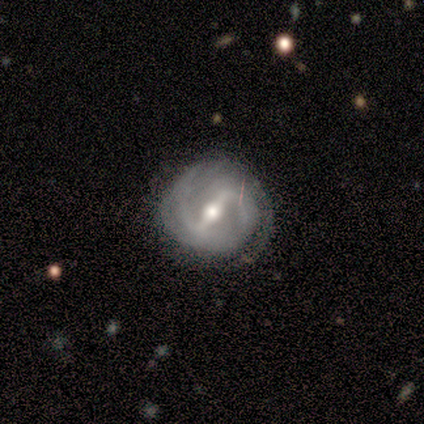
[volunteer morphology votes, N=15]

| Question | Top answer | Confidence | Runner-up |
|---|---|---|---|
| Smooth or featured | featured or disk | 93% | star or artifact (7%) |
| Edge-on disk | no | 100% | — |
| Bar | strong | 79% | weak (21%) |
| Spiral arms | yes | 100% | — |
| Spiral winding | medium | 50% | tight (36%) |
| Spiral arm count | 2 | 71% | 3 (14%) |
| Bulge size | moderate | 71% | large (14%) |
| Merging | none | 86% | minor disturbance (14%) |